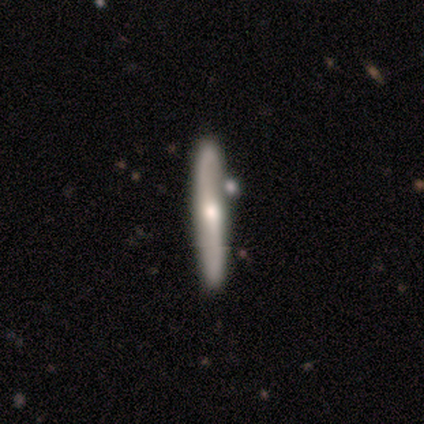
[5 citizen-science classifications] Smooth or featured? featured or disk (60%)
Edge-on disk? yes (100%)
Edge-on bulge? rounded (100%)
Merging? none (80%)